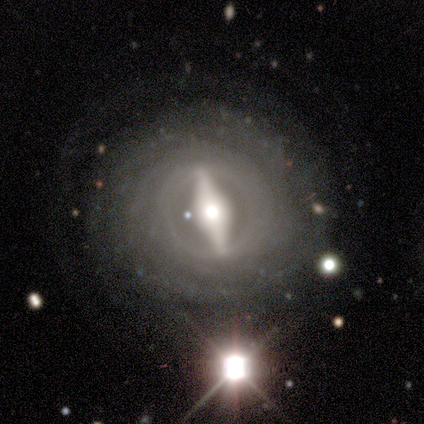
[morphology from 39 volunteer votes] smooth-or-featured: featured or disk: 97% | smooth: 3% | star or artifact: 0%
  disk-edge-on: no: 84% | yes: 16%
    bar: strong: 81% | weak: 12% | no: 6%
    has-spiral-arms: yes: 84% | no: 16%
      spiral-winding: tight: 78% | medium: 15% | loose: 7%
      spiral-arm-count: can't tell: 41% | more than 4: 26% | 2: 19% | 3: 7% | 4: 7% | 1: 0%
    bulge-size: moderate: 66% | large: 25% | small: 9% | dominant: 0% | none: 0%
  merging: none: 90% | major disturbance: 8% | minor disturbance: 3% | merger: 0%